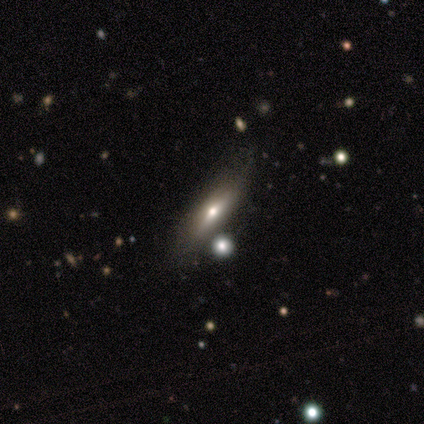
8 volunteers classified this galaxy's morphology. smooth 50% (tied), featured or disk 50% (tied), star or artifact 0%. Down the decision tree: how rounded — cigar-shaped (75%); merging — none (75%).